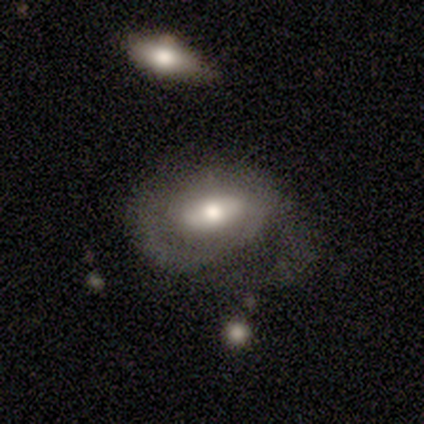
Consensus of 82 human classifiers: Morphology: type=smooth (46%, tied with featured or disk); roundness=in between (79%); merging=none (39%).